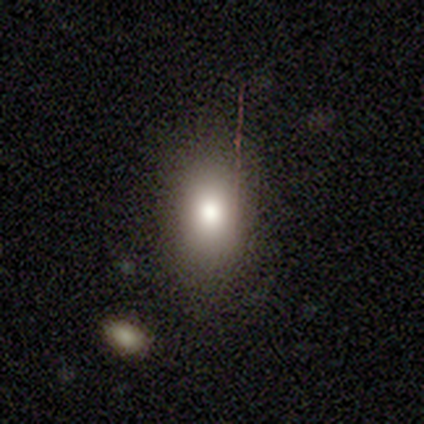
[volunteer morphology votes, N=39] smooth_or_featured: smooth (p=0.79) [alt: featured or disk p=0.18]
how_rounded: in between (p=0.84) [alt: round p=0.16]
merging: none (p=0.89) [alt: minor disturbance p=0.08]